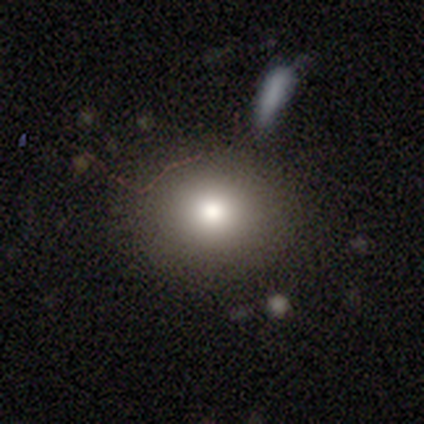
smooth 89%, star or artifact 8%, featured or disk 4%. Down the decision tree: how rounded — round (80%); merging — none (45%).